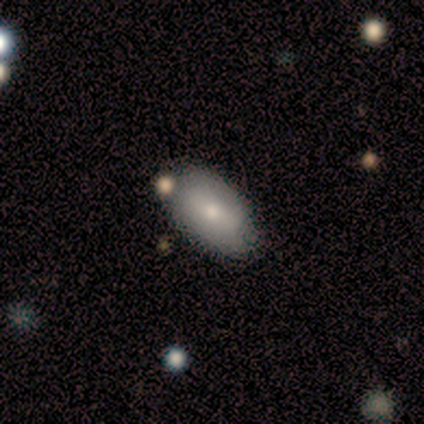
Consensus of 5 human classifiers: A smooth galaxy with no disk features (100%) that is in between round and cigar-shaped (100%). Merging: none (100%).